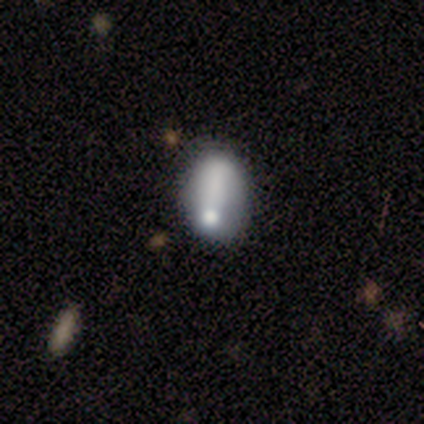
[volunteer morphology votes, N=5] Smooth or featured?
  - smooth: 80% *
  - featured or disk: 20%
  - star or artifact: 0%
How rounded?
  - in between: 75% *
  - round: 25%
  - cigar-shaped: 0%
Merging?
  - none: 100% *
  - minor disturbance: 0%
  - major disturbance: 0%
  - merger: 0%